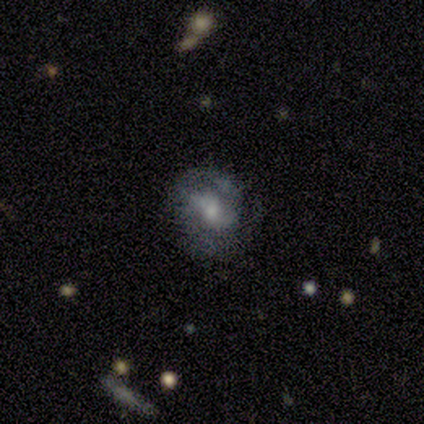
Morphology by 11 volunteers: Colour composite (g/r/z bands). It shows a smooth galaxy with no disk features (64%) that is in between round and cigar-shaped (86%). Merging: none (73%).